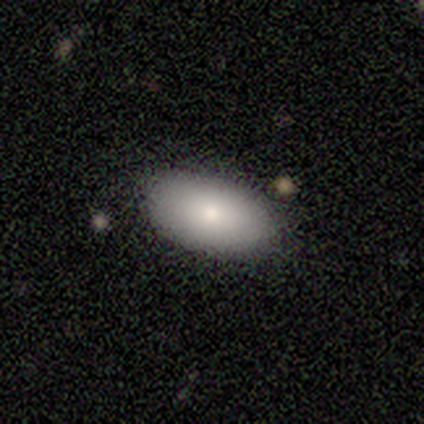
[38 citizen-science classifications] Smooth or featured? smooth (79%)
How rounded? in between (97%)
Merging? none (77%)